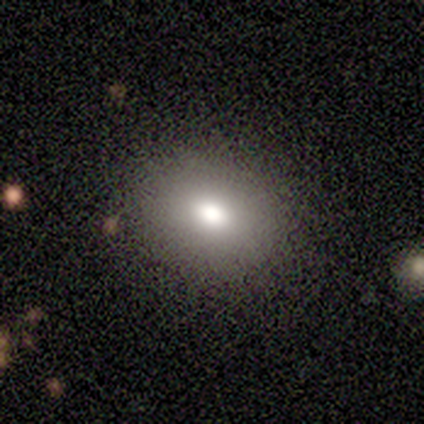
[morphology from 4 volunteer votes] Overall: smooth (75%). How rounded: round (100%). Merging: none (100%).